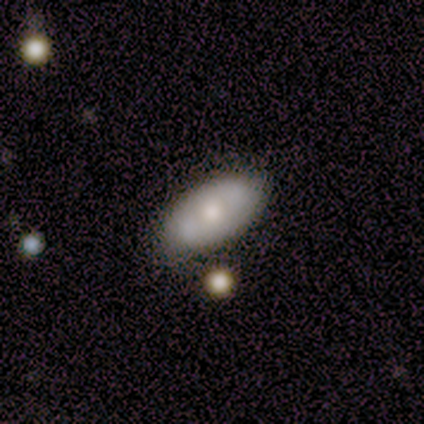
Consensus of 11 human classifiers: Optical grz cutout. It shows a smooth galaxy with no disk features (55%) that is in between round and cigar-shaped (100%). Merging: none (82%).